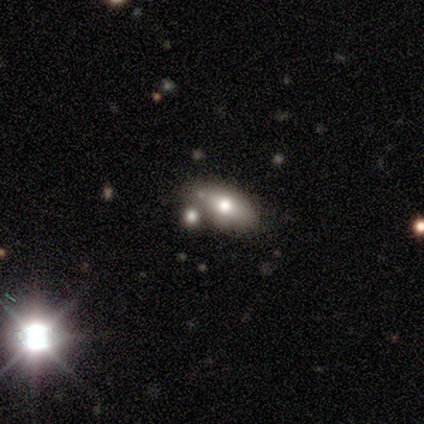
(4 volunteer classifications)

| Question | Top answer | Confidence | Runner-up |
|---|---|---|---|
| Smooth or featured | smooth | 50% | tied: featured or disk (50%) |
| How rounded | in between | 100% | — |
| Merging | none | 75% | minor disturbance (25%) |